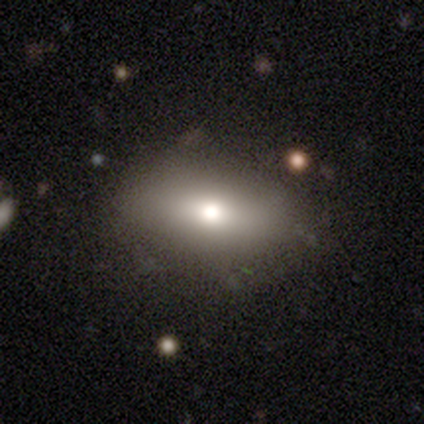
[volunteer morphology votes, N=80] This is likely a smooth galaxy (74%). How rounded: clearly in between (90%). Merging: marginally none (44%).